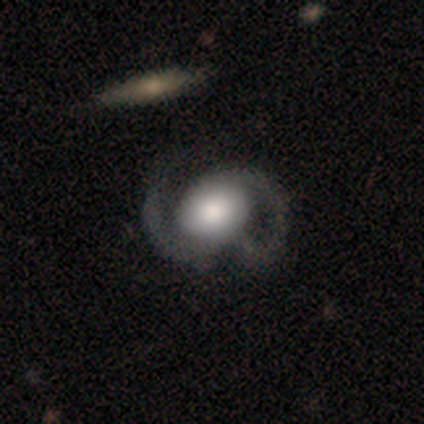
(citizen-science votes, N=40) Smooth or featured? 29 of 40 (72%) said featured or disk. Edge-on disk? 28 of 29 (97%) said no. Bar? 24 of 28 (86%) said no. Spiral arms? 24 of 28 (86%) said yes. Spiral winding? 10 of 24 (42%, tied with loose) said medium. Spiral arm count? 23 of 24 (96%) said 2. Bulge size? 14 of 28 (50%) said large. Merging? 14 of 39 (36%) said none.